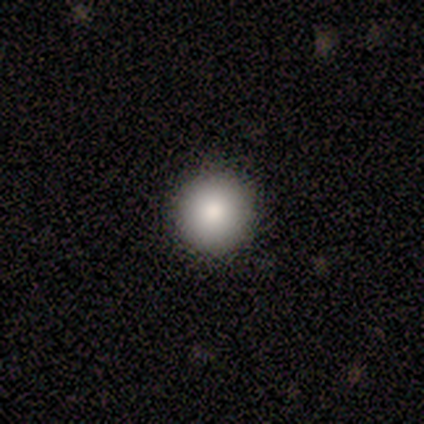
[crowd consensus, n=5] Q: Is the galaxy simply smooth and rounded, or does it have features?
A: smooth — 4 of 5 (80%).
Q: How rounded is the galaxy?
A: round — 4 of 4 (100%).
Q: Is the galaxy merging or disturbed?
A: none — 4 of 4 (100%).